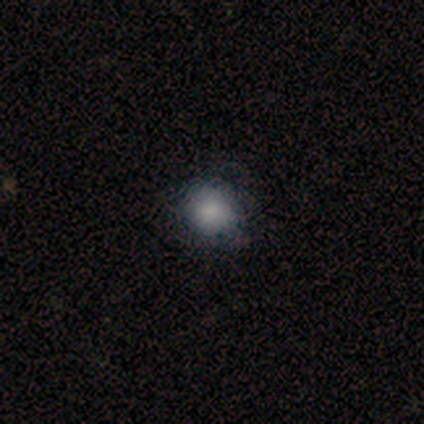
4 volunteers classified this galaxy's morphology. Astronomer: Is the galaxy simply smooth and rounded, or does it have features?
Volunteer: smooth — 75%.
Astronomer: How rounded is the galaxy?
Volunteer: round — 100%.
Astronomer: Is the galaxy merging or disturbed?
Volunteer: none — 100%.